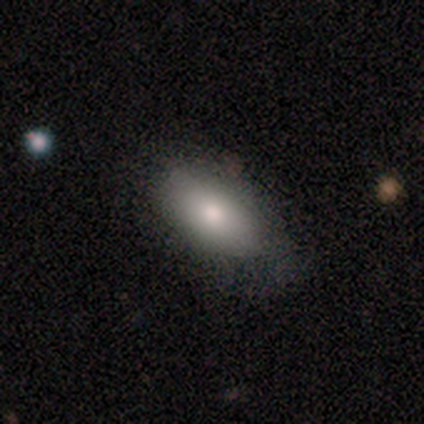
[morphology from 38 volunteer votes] This appears to be a smooth galaxy with no disk features (74%) that is in between round and cigar-shaped (96%). Merging: none (82%).